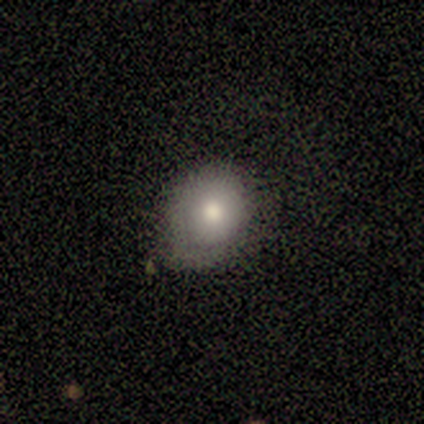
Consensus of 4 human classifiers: smooth_or_featured: smooth (p=0.75) [alt: featured or disk p=0.25]
how_rounded: round (p=0.67) [alt: in between p=0.33]
merging: none (p=0.75) [alt: minor disturbance p=0.25]